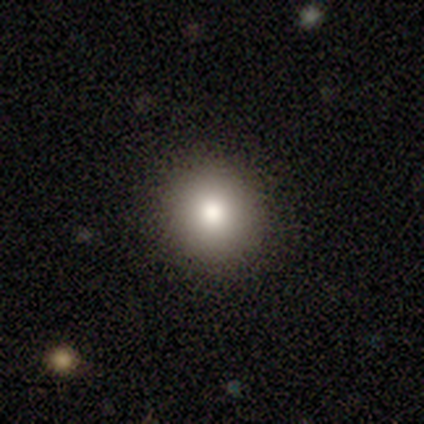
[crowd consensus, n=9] Overall: smooth (78%). How rounded: round (86%). Merging: none (100%).